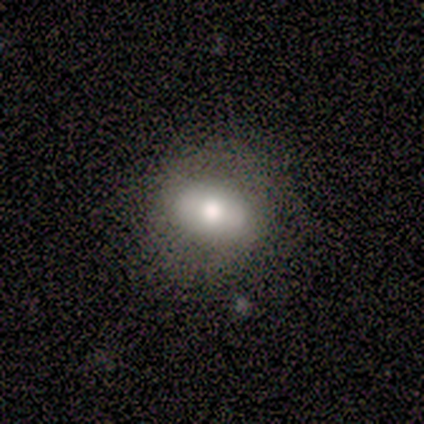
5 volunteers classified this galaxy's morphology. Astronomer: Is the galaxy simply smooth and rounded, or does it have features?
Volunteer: smooth — 80%.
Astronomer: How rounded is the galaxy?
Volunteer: in between — 75%.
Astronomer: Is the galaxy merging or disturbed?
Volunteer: none — 100%.